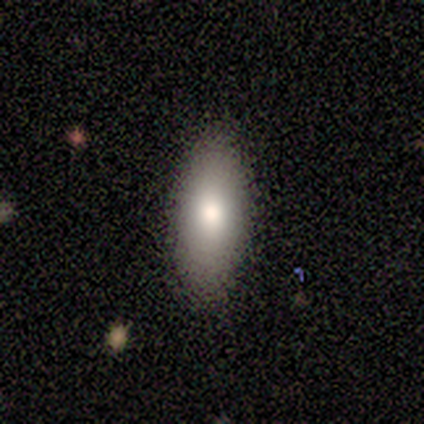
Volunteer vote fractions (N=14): Smooth or featured?
  - smooth: 71% *
  - featured or disk: 21%
  - star or artifact: 7%
How rounded?
  - in between: 80% *
  - cigar-shaped: 20%
  - round: 0%
Merging?
  - none: 92% *
  - minor disturbance: 8%
  - major disturbance: 0%
  - merger: 0%